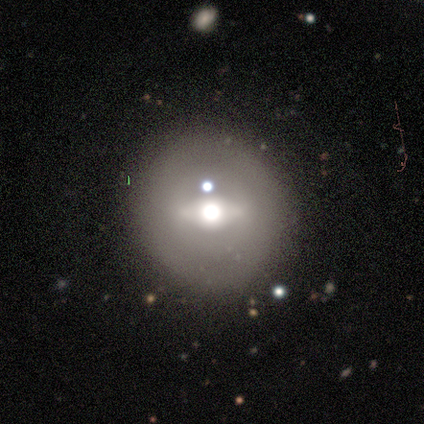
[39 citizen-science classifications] Smooth or featured?
  - featured or disk: 59% *
  - smooth: 33%
  - star or artifact: 8%
Edge-on disk?
  - no: 61% *
  - yes: 39%
Bar?
  - strong: 50% *
  - weak: 29%
  - no: 21%
Spiral arms?
  - no: 79% *
  - yes: 21%
Bulge size?
  - moderate: 57% *
  - large: 21%
  - dominant: 14%
  - small: 7%
  - none: 0%
Merging?
  - none: 83% *
  - minor disturbance: 11%
  - major disturbance: 3%
  - merger: 3%